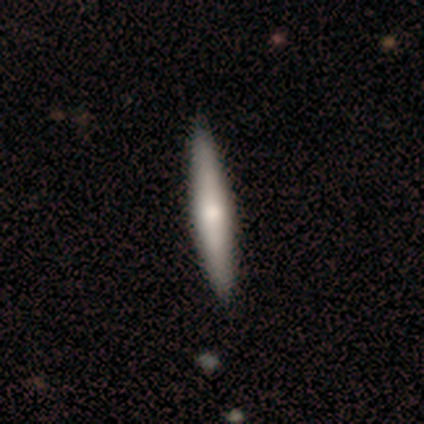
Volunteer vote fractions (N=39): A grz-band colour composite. It shows a smooth galaxy with no disk features (56%) that is cigar-shaped (91%). Merging: none (51%).